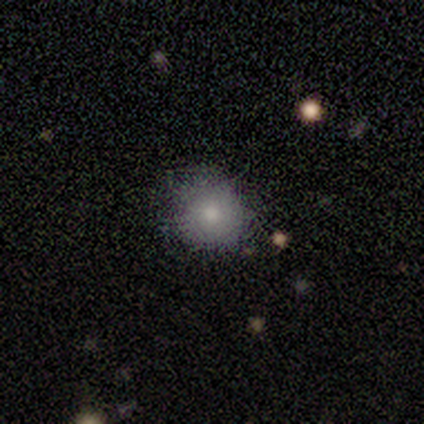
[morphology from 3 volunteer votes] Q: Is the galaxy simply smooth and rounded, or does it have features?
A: smooth — 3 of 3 (100%).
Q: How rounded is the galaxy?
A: round — 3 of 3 (100%).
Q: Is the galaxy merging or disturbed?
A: none — 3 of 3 (100%).